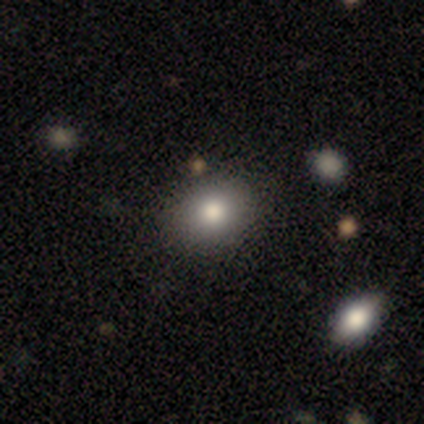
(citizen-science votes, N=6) smooth_or_featured: smooth (p=0.67) [alt: featured or disk p=0.33]
how_rounded: in between (p=0.75) [alt: round p=0.25]
merging: none (p=0.83) [alt: minor disturbance p=0.17]